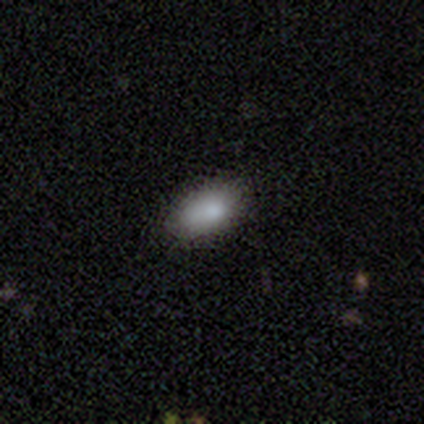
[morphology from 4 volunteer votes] smooth-or-featured: smooth: 100% | featured or disk: 0% | star or artifact: 0%
  how-rounded: in between: 100% | round: 0% | cigar-shaped: 0%
  merging: none: 75% | minor disturbance: 25% | major disturbance: 0% | merger: 0%